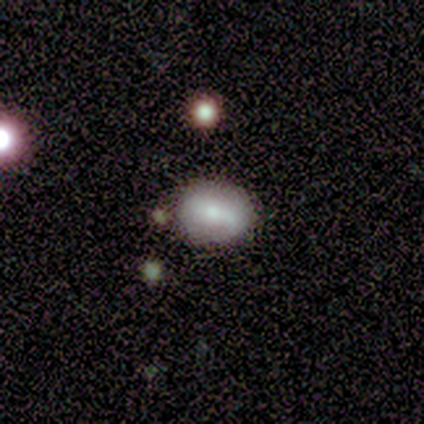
A smooth galaxy with no disk features (50%, tied with featured or disk) that is round (50%, tied with in between). Merging: none (100%).